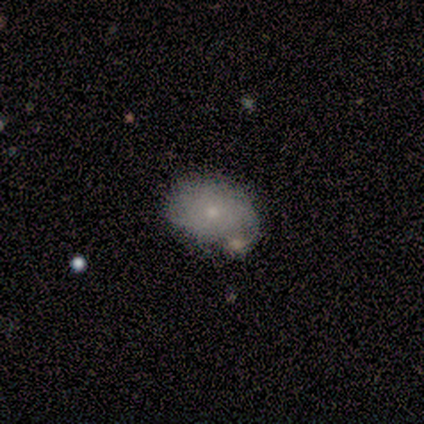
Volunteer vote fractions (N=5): A smooth galaxy with no disk features (80%) that is in between round and cigar-shaped (75%). Merging: minor disturbance (60%).